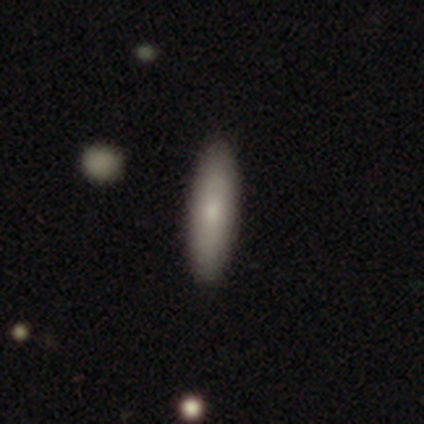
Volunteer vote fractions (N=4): Overall: smooth (100%). How rounded: cigar-shaped (75%). Merging: none (75%).